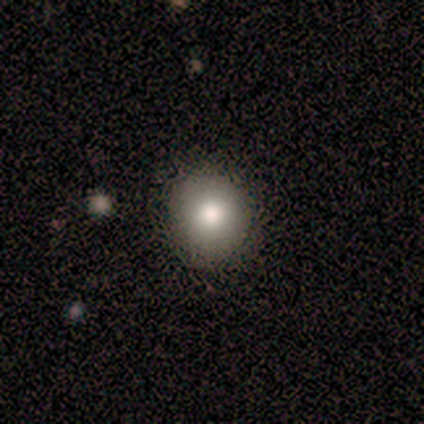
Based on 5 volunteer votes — Volunteers were most divided on "how rounded": round: 60%, in between: 40%, cigar-shaped: 0%. More confident: smooth or featured — smooth (100%); merging — none (100%).